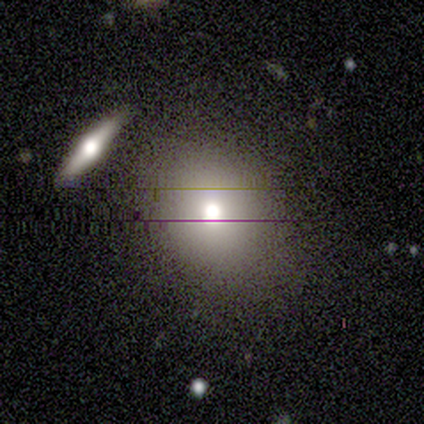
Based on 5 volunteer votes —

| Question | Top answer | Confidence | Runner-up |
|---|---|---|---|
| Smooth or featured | smooth | 40% | tied: featured or disk (40%) |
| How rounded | round | 100% | — |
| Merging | none | 75% | merger (25%) |